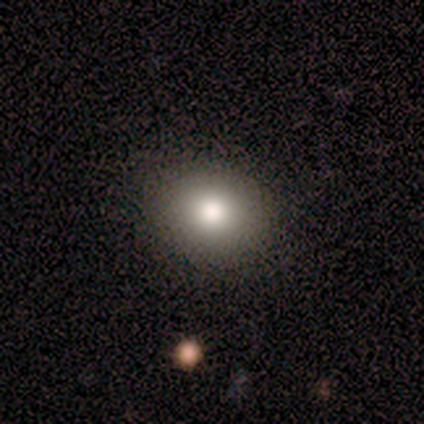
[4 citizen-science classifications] A smooth galaxy with no disk features (100%) that is round (75%).

Vote fractions:
- Smooth or featured? smooth: 100% / featured or disk: 0% / star or artifact: 0%
- How rounded? round: 75% / in between: 25% / cigar-shaped: 0%
- Merging? none: 100% / minor disturbance: 0% / major disturbance: 0% / merger: 0%